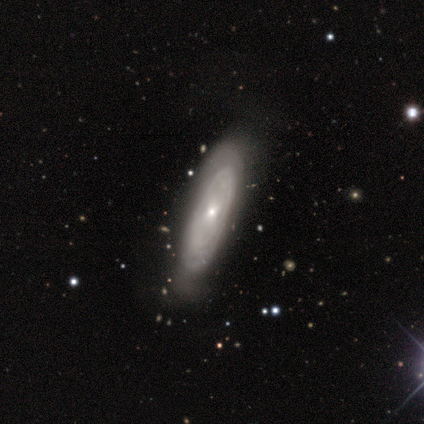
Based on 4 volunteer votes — This is clearly a featured or disk galaxy (100%). It is possibly viewed edge-on (50%, tied with no). Edge-on bulge: possibly none (50%, tied with rounded). Merging: likely none (75%).